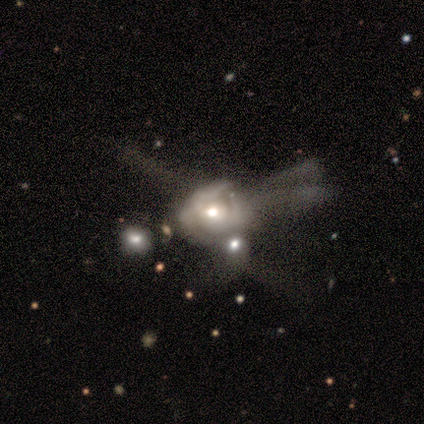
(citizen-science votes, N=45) Smooth or featured? 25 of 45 (56%) said featured or disk. Edge-on disk? 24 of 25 (96%) said no. Bar? 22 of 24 (92%) said no. Spiral arms? 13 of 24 (54%) said yes. Spiral winding? 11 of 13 (85%) said tight. Spiral arm count? 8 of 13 (62%) said can't tell. Bulge size? 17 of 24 (71%) said moderate. Merging? 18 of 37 (49%) said merger.